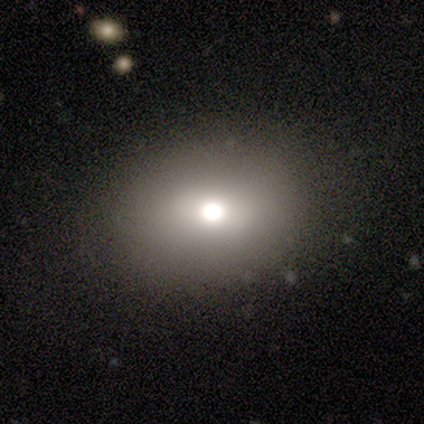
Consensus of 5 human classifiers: Q: Smooth or featured?
A: star or artifact (60%); runner-up: smooth (40%)